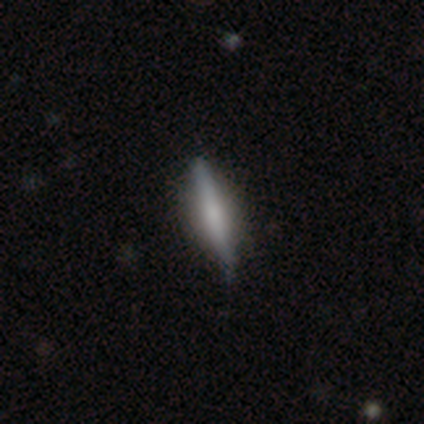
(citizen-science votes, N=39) Smooth or featured?
  - featured or disk: 56% *
  - smooth: 38%
  - star or artifact: 5%
Edge-on disk?
  - yes: 100% *
  - no: 0%
Edge-on bulge?
  - rounded: 55% *
  - boxy: 23%
  - none: 23%
Merging?
  - none: 76% *
  - minor disturbance: 16%
  - merger: 5%
  - major disturbance: 3%